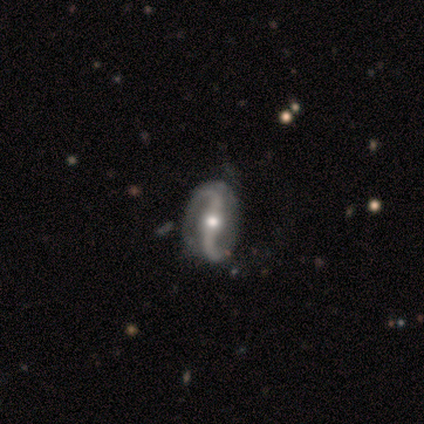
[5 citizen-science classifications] Q: Smooth or featured?
A: featured or disk (80%); runner-up: star or artifact (20%)
Q: Edge-on disk?
A: no (100%)
Q: Bar?
A: strong (100%)
Q: Spiral arms?
A: yes (100%)
Q: Spiral winding?
A: loose (75%); runner-up: medium (25%)
Q: Spiral arm count?
A: 2 (100%)
Q: Bulge size?
A: moderate (100%)
Q: Merging?
A: none (75%); runner-up: minor disturbance (25%)